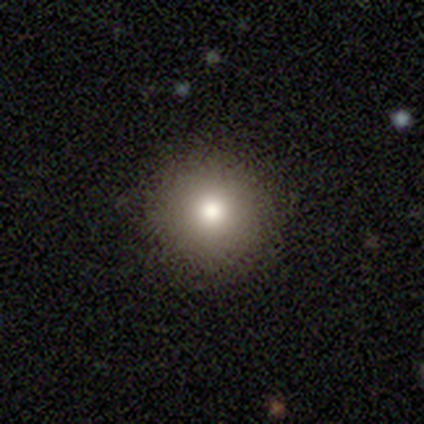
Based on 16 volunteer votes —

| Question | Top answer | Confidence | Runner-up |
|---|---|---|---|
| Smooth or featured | smooth | 81% | star or artifact (12%) |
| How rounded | round | 100% | — |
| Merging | none | 100% | — |